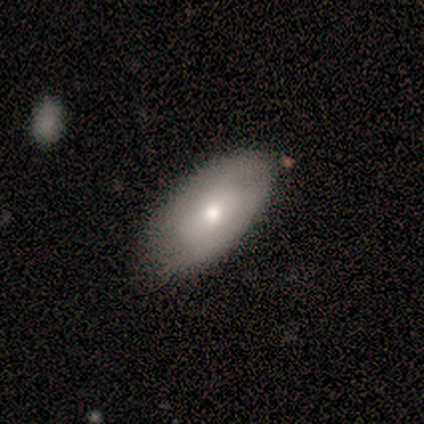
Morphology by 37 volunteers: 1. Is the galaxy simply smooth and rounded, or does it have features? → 68% smooth, 30% featured or disk, 3% star or artifact.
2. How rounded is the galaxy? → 92% in between, 8% round, 0% cigar-shaped.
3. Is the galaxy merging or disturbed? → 72% none, 19% minor disturbance, 8% major disturbance, 0% merger.